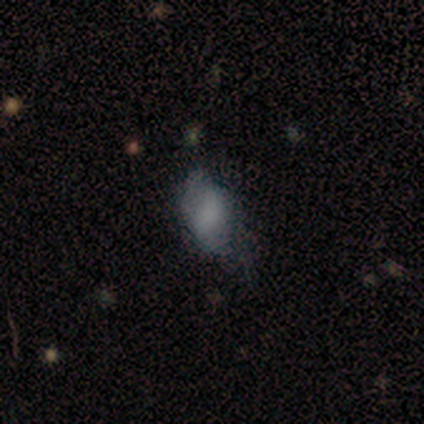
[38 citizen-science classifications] This appears to be a smooth galaxy with no disk features (63%) that is in between round and cigar-shaped (88%). Merging: minor disturbance (42%).